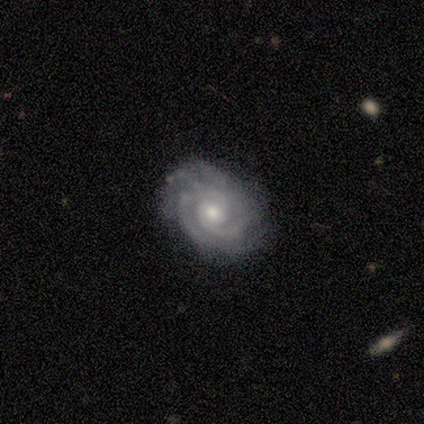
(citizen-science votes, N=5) smooth_or_featured: featured or disk (p=0.80) [alt: smooth p=0.20]
disk_edge_on: no (p=1.00)
bar: no (p=0.75) [alt: strong p=0.25]
has_spiral_arms: yes (p=1.00)
spiral_winding: tight (p=1.00)
spiral_arm_count: 2 (p=0.75) [alt: 3 p=0.25]
bulge_size: small (p=0.75) [alt: moderate p=0.25]
merging: none (p=1.00)